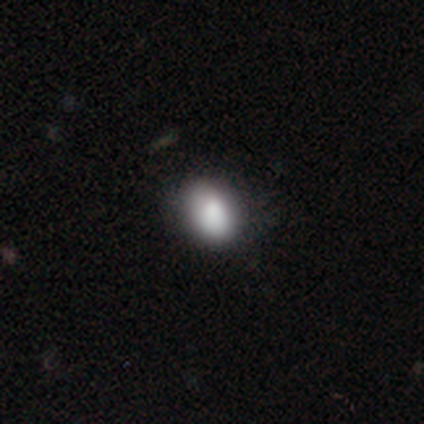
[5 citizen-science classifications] A smooth galaxy with no disk features (100%) that is in between round and cigar-shaped (80%). Merging: none (80%).